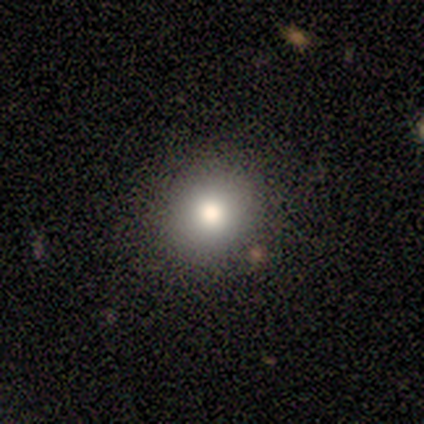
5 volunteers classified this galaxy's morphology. Smooth or featured?
  - smooth: 80% *
  - featured or disk: 20%
  - star or artifact: 0%
How rounded?
  - round: 100% *
  - in between: 0%
  - cigar-shaped: 0%
Merging?
  - none: 80% *
  - minor disturbance: 20%
  - major disturbance: 0%
  - merger: 0%